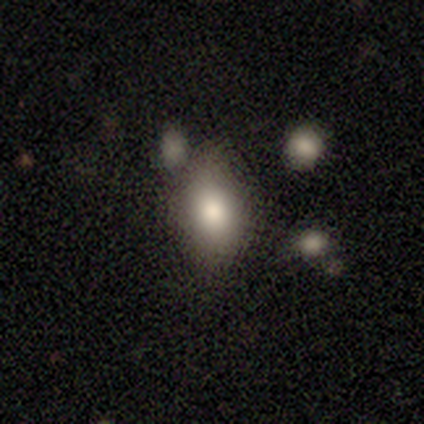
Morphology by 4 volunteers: Smooth or featured?
  - smooth: 100% *
  - featured or disk: 0%
  - star or artifact: 0%
How rounded?
  - in between: 75% *
  - round: 25%
  - cigar-shaped: 0%
Merging?
  - none: 50% *
  - minor disturbance: 25%
  - merger: 25%
  - major disturbance: 0%